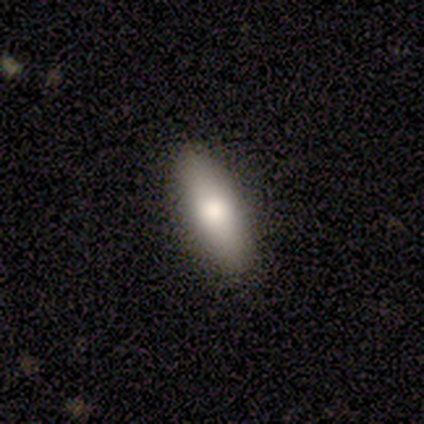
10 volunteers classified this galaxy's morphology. Overall: smooth (90%). How rounded: in between (56%; cigar-shaped 44%). Merging: none (90%).